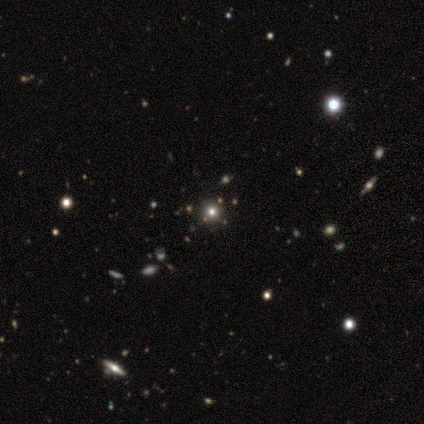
Volunteers were most divided on "smooth or featured": smooth: 60%, featured or disk: 40%, star or artifact: 0%. More confident: how rounded — round (100%); merging — none (100%).